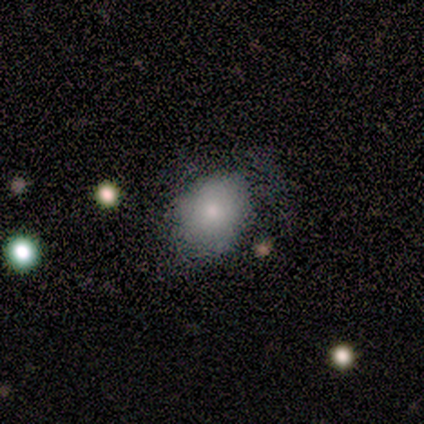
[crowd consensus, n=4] Smooth or featured?
  - smooth: 100% *
  - featured or disk: 0%
  - star or artifact: 0%
How rounded?
  - in between: 100% *
  - round: 0%
  - cigar-shaped: 0%
Merging?
  - minor disturbance: 50% *
  - none: 25%
  - major disturbance: 25%
  - merger: 0%